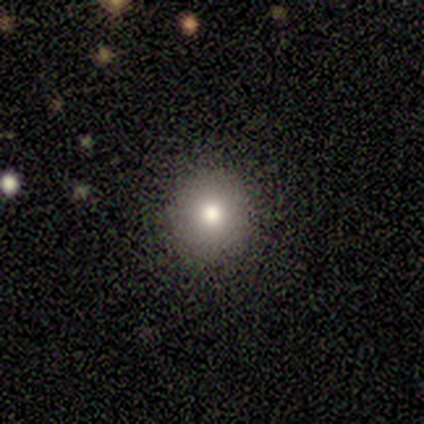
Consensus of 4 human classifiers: Overall: smooth (100%). How rounded: round (100%). Merging: none (75%).